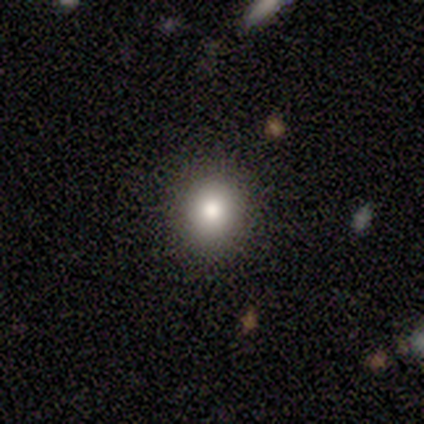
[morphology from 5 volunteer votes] smooth_or_featured: smooth (p=1.00)
how_rounded: round (p=0.80) [alt: in between p=0.20]
merging: none (p=0.80) [alt: merger p=0.20]